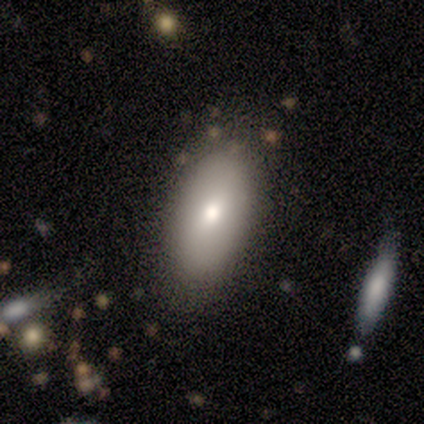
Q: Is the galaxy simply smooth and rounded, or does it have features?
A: smooth — 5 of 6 (83%).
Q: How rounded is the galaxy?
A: in between — 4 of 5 (80%).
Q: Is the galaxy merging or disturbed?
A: none — 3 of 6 (50%).